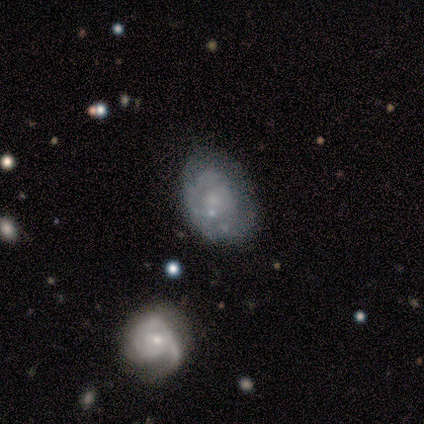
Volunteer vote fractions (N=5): Morphology: type=smooth (80%); roundness=in between (75%); merging=none (40%, tied with minor disturbance).